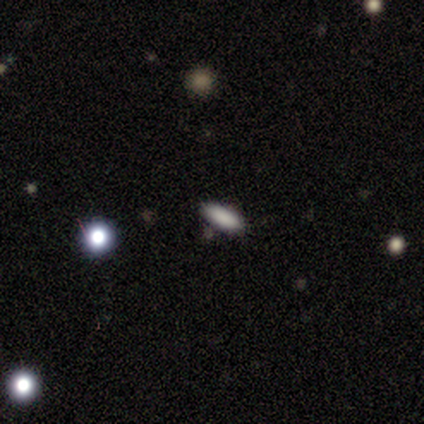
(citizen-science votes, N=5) Volunteers were most divided on "smooth or featured": smooth: 60%, featured or disk: 40%, star or artifact: 0%. More confident: merging — none (100%); how rounded — cigar-shaped (67%).